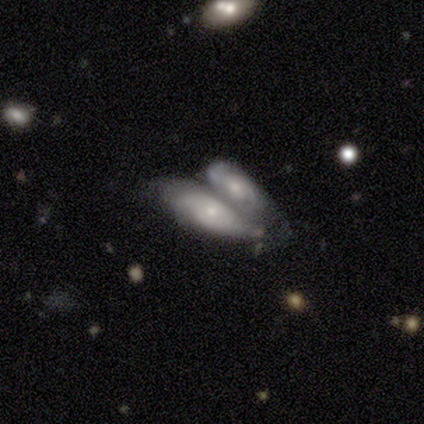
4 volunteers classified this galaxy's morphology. A smooth galaxy with no disk features (50%, tied with featured or disk) that is in between round and cigar-shaped (50%, tied with cigar-shaped).

Vote fractions:
- Smooth or featured? smooth: 50% (tied) / featured or disk: 50% (tied) / star or artifact: 0%
- How rounded? in between: 50% (tied) / cigar-shaped: 50% (tied) / round: 0%
- Merging? merger: 100% / none: 0% / minor disturbance: 0% / major disturbance: 0%